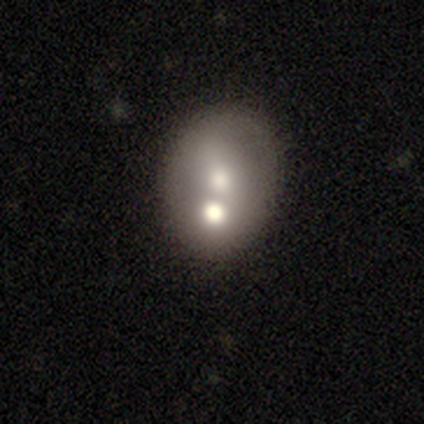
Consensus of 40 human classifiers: smooth_or_featured: smooth (p=0.57) [alt: featured or disk p=0.35]
how_rounded: in between (p=0.57) [alt: round p=0.43]
merging: merger (p=0.43) [alt: none p=0.38]